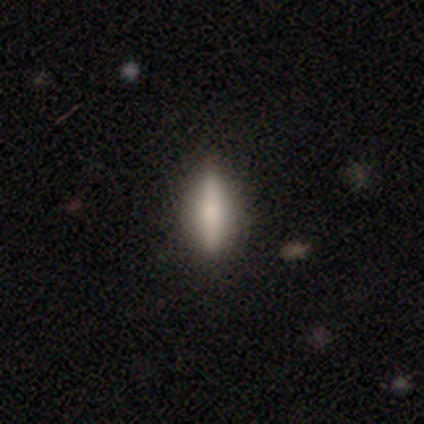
Q: Smooth or featured?
A: smooth (49%); runner-up: featured or disk (42%)
Q: How rounded?
A: cigar-shaped (67%); runner-up: in between (33%)
Q: Merging?
A: none (85%); runner-up: minor disturbance (11%)